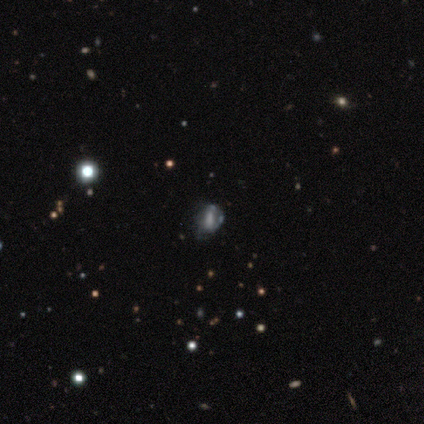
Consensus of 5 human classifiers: Smooth or featured? 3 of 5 (60%) said smooth. How rounded? 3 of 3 (100%) said in between. Merging? 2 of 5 (40%) said merger.